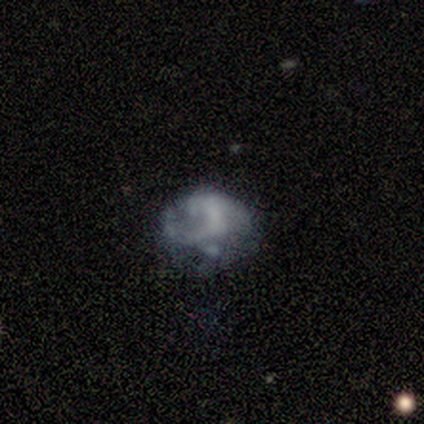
Smooth or featured: featured or disk — 46% (smooth — 38%)
Edge-on disk: no — 100%
Bar: no — 67% (strong — 17%)
Spiral arms: yes — 50% (tied with no — 50%)
Spiral winding: medium — 67% (loose — 33%)
Spiral arm count: 2 — 67% (4 — 33%)
Bulge size: none — 50% (small — 33%)
Merging: major disturbance — 45% (none — 27%)